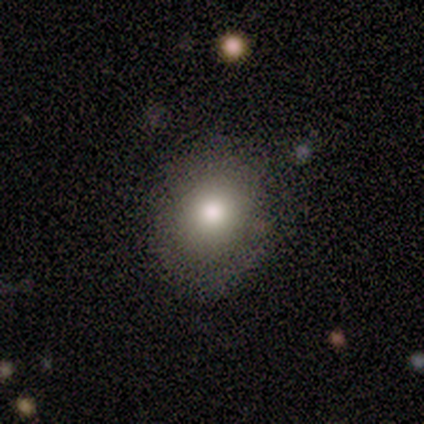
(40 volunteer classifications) This is likely a smooth galaxy (78%). How rounded: likely round (61%). Merging: clearly none (89%).